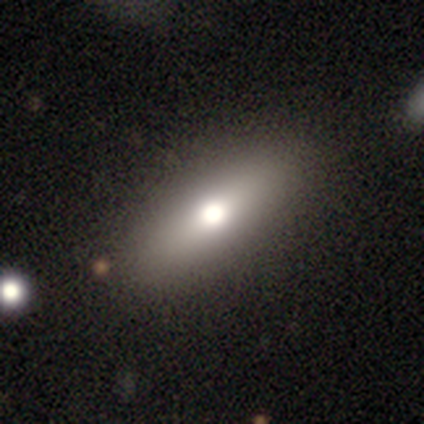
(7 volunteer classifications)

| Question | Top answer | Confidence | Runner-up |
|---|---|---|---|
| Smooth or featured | smooth | 86% | featured or disk (14%) |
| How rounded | cigar-shaped | 50% | in between (33%) |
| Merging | none | 71% | merger (29%) |